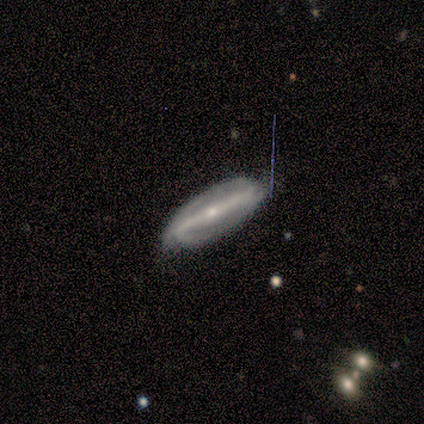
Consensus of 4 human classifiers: Overall: featured or disk (100%). Edge-on disk: no (100%). Bar: strong (100%). Spiral arms: yes (100%). Spiral arm count: 2 (100%). Spiral winding: loose (75%). Bulge size: small (100%). Merging: none (75%).